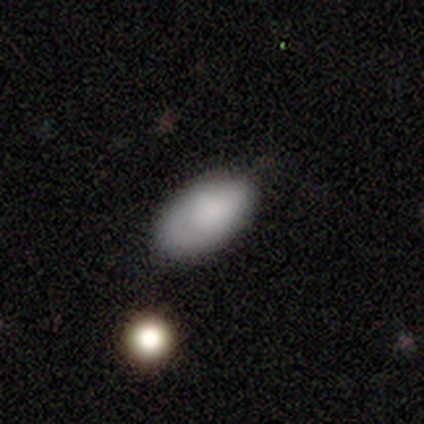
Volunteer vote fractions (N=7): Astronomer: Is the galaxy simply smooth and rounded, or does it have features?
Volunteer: smooth — 86%.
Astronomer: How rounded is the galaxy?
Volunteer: in between — 100%.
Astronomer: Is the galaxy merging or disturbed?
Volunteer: none — 71%.